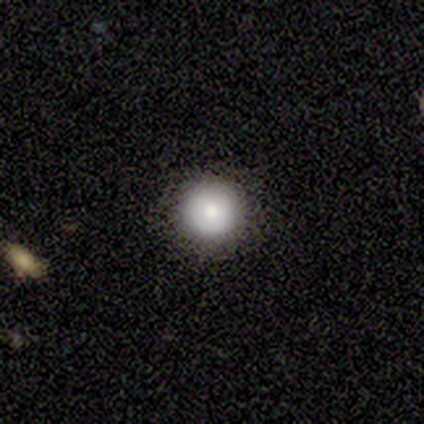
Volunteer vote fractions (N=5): Smooth or featured: smooth — 80% (featured or disk — 20%)
How rounded: round — 100%
Merging: none — 80% (minor disturbance — 20%)